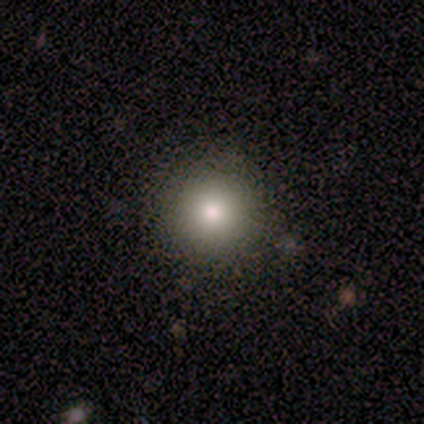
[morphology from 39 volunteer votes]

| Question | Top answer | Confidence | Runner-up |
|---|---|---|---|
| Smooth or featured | smooth | 82% | featured or disk (13%) |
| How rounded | round | 97% | in between (3%) |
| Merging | none | 92% | minor disturbance (8%) |